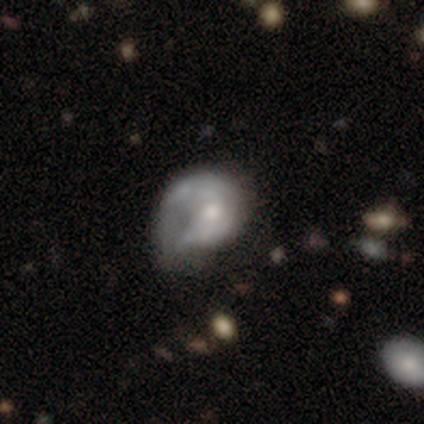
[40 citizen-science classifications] Smooth or featured? featured or disk (52%)
Edge-on disk? no (100%)
Bar? no (71%)
Spiral arms? no (57%)
Bulge size? small (52%)
Merging? major disturbance (54%)